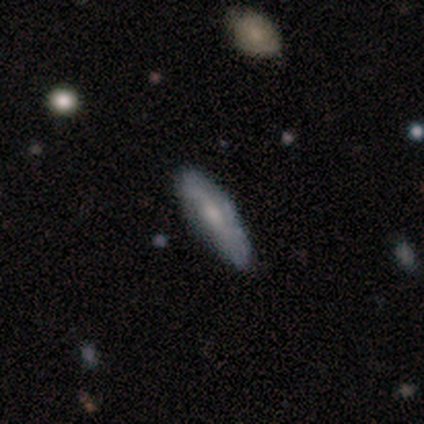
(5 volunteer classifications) Smooth or featured? 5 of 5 (100%) said featured or disk. Edge-on disk? 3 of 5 (60%) said yes. Edge-on bulge? 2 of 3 (67%) said rounded. Merging? 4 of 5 (80%) said none.